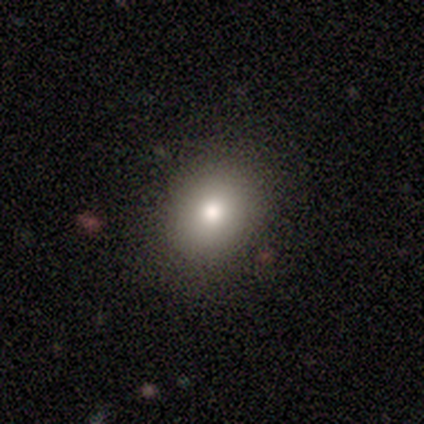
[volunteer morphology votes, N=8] Volunteers were most divided on "how rounded": round: 75%, in between: 25%, cigar-shaped: 0%. More confident: smooth or featured — smooth (100%); merging — none (75%).